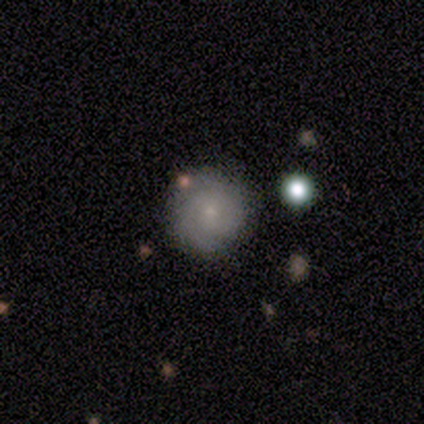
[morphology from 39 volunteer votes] smooth-or-featured: featured or disk: 56% | smooth: 41% | star or artifact: 3%
  disk-edge-on: no: 100% | yes: 0%
    bar: no: 82% | weak: 14% | strong: 5%
    has-spiral-arms: yes: 91% | no: 9%
      spiral-winding: tight: 85% | medium: 10% | loose: 5%
      spiral-arm-count: can't tell: 55% | 2: 35% | 1: 5% | 3: 5% | 4: 0% | more than 4: 0%
    bulge-size: small: 86% | moderate: 9% | none: 5% | dominant: 0% | large: 0%
  merging: none: 95% | major disturbance: 5% | minor disturbance: 0% | merger: 0%